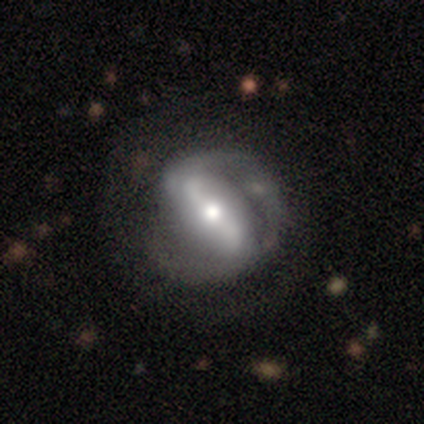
Morphology: type=featured or disk (82%); edge-on=no (95%); bar=strong (69%); spiral arms=yes (86%); winding=loose (44%); arm count=2 (93%); bulge=moderate (63%); merging=none (70%).